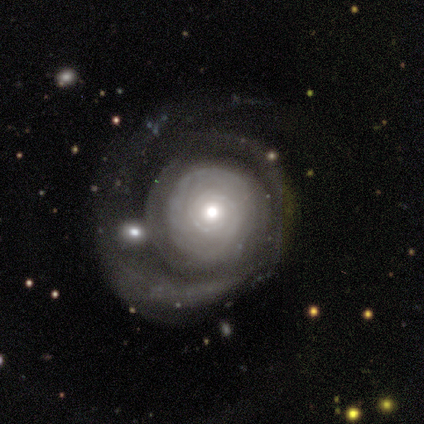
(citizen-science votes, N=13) Smooth or featured? featured or disk (92%)
Edge-on disk? no (100%)
Bar? no (92%)
Spiral arms? yes (92%)
Spiral winding? tight (64%)
Spiral arm count? can't tell (55%)
Bulge size? moderate (50%)
Merging? major disturbance (46%)